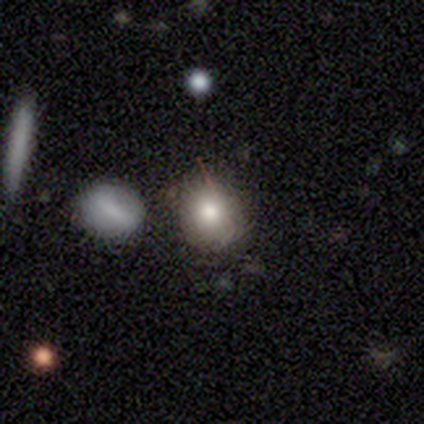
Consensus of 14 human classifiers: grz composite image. It shows a smooth galaxy with no disk features (71%) that is round (80%). Merging: none (62%).